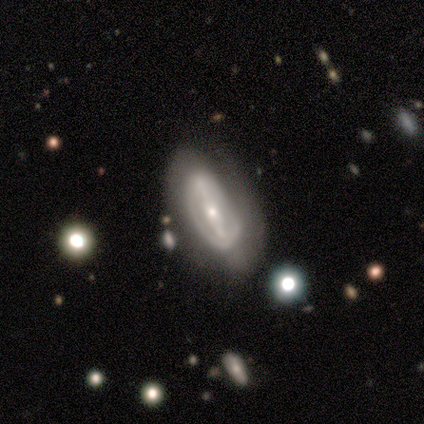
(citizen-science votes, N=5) Morphology: type=featured or disk (100%); edge-on=no (80%); bar=strong (50%, tied with no); spiral arms=yes (50%, tied with no); winding=tight (50%, tied with loose); arm count=can't tell (100%); bulge=large (25%, tied with moderate, small and none); merging=none (60%).